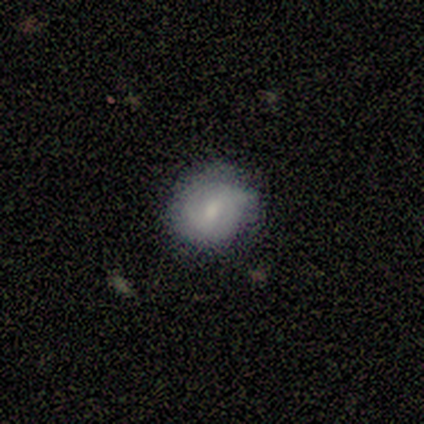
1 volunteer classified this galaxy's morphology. Smooth or featured? smooth (100%)
How rounded? round (100%)
Merging? none (100%)